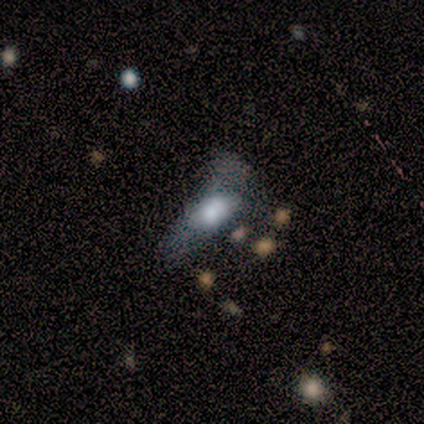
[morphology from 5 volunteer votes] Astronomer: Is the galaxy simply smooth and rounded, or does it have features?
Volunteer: smooth — 80%.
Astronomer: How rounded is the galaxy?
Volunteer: cigar-shaped — 75%.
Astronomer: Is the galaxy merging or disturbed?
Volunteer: major disturbance — 40% (runner-up: none, 20%).